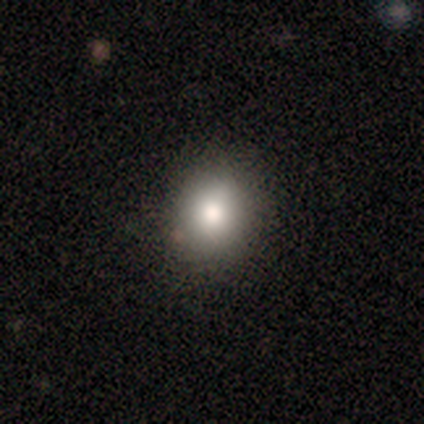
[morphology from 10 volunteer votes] Smooth or featured? smooth (70%)
How rounded? round (71%)
Merging? none (88%)